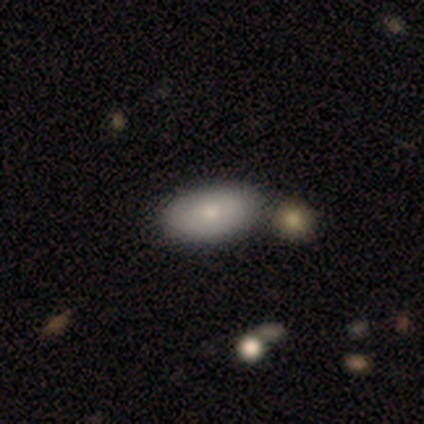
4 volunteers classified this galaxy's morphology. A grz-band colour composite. It shows a smooth galaxy with no disk features (75%) that is in between round and cigar-shaped (100%). Merging: none (100%).